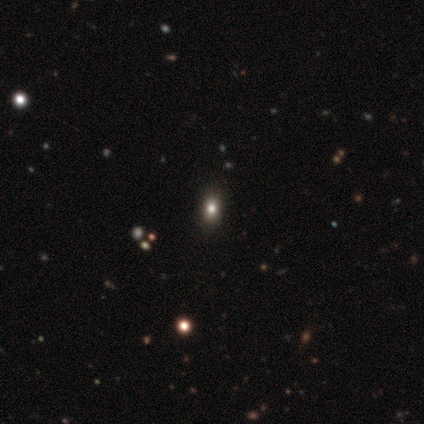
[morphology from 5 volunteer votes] smooth 80%, star or artifact 20%, featured or disk 0%. Down the decision tree: how rounded — round (75%); merging — none (75%).